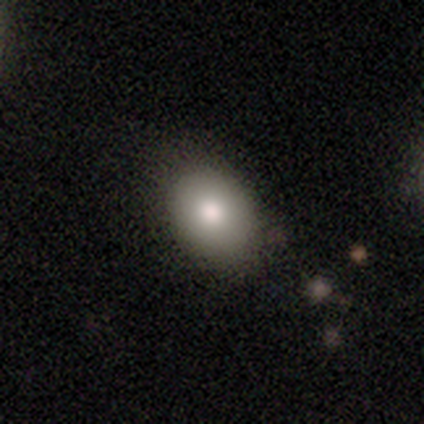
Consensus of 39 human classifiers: Smooth or featured? 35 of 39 (90%) said smooth. How rounded? 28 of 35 (80%) said in between. Merging? 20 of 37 (54%) said none.